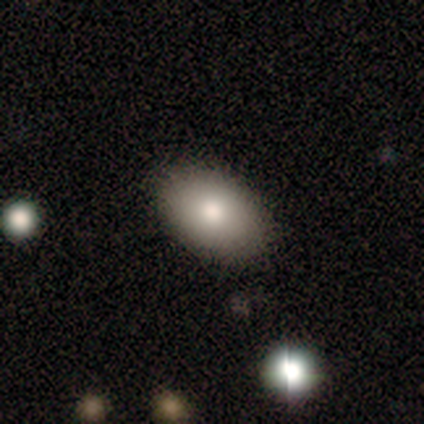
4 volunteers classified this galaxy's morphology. Smooth or featured? smooth (100%)
How rounded? in between (100%)
Merging? none (100%)